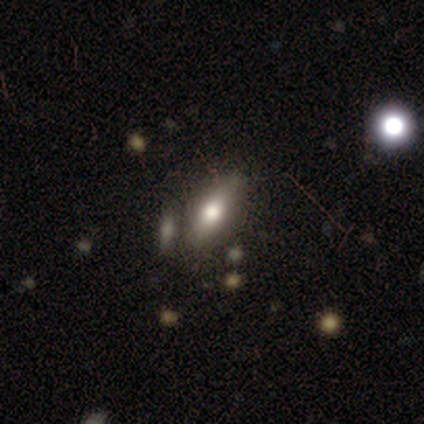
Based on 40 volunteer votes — Smooth or featured?
  - smooth: 70% *
  - featured or disk: 25%
  - star or artifact: 5%
How rounded?
  - in between: 79% *
  - cigar-shaped: 18%
  - round: 4%
Merging?
  - none: 76% *
  - minor disturbance: 11%
  - merger: 11%
  - major disturbance: 3%